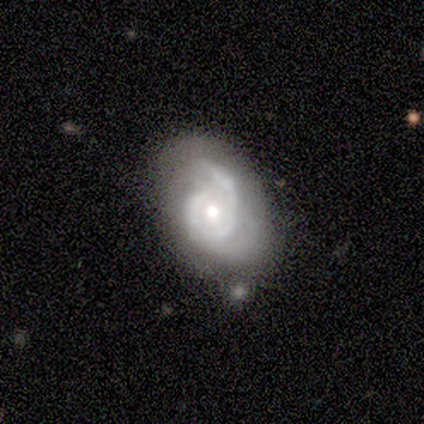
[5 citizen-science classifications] featured or disk 100%, smooth 0%, star or artifact 0%. Down the decision tree: edge-on disk — no (100%); bar — no (100%); spiral arms — yes (100%); spiral arm count — 2 (60%); spiral winding — medium (60%); bulge size — moderate (40%, tied with small); merging — none (60%).